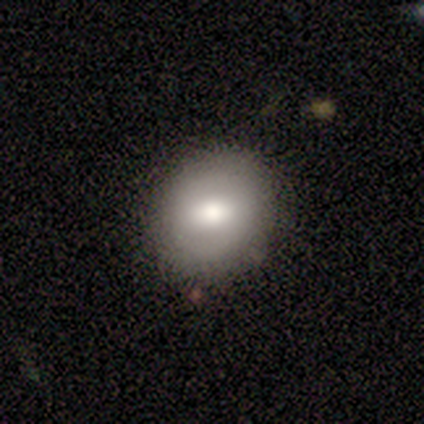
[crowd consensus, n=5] Q: Smooth or featured?
A: smooth (60%); runner-up: featured or disk (20%)
Q: How rounded?
A: round (100%)
Q: Merging?
A: none (100%)